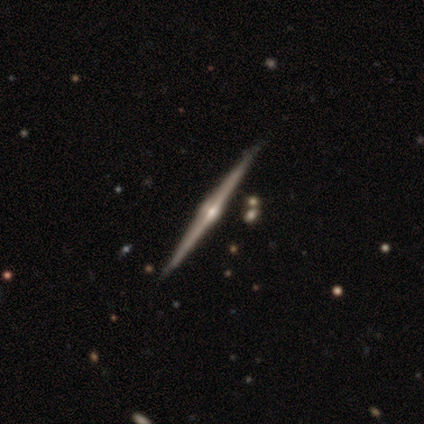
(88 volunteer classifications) This is clearly a featured or disk galaxy (93%). It is clearly viewed edge-on (99%). Edge-on bulge: clearly rounded (96%). Merging: clearly none (88%).